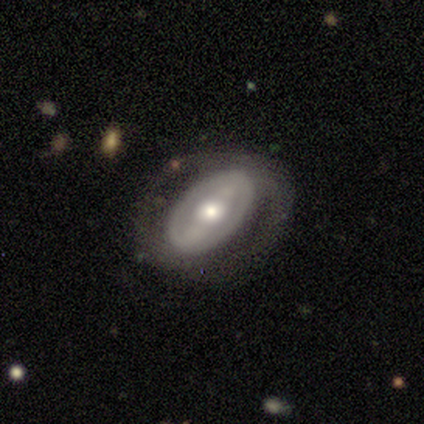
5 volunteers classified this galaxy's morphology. A featured or disk galaxy (100%) with a strong bar (80%), no spiral arms (80%) and a moderate central bulge (60%). Merging: none (60%).